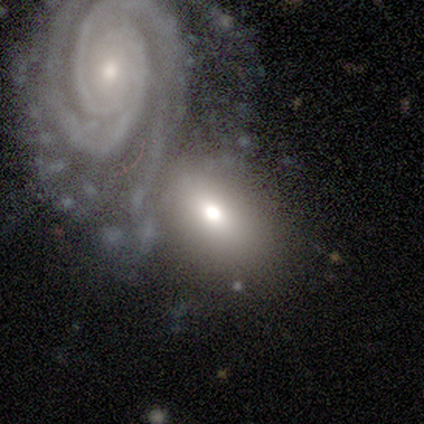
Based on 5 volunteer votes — smooth_or_featured: featured or disk (p=0.60) [alt: smooth p=0.20]
disk_edge_on: no (p=0.67) [alt: yes p=0.33]
bar: no (p=1.00)
has_spiral_arms: yes (p=1.00)
spiral_winding: tight (p=1.00)
spiral_arm_count: can't tell (p=1.00)
bulge_size: small (p=1.00)
merging: merger (p=0.50) [alt: none p=0.25]